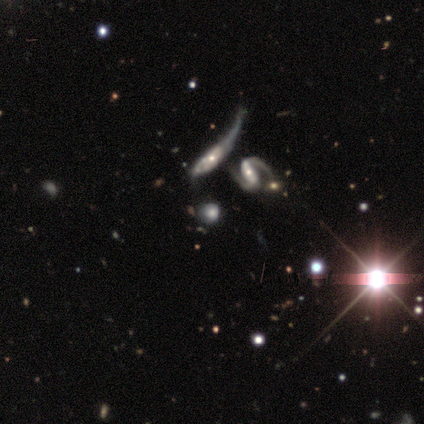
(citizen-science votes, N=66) Q: Smooth or featured?
A: featured or disk (44%); runner-up: smooth (38%)
Q: Edge-on disk?
A: no (86%); runner-up: yes (14%)
Q: Bar?
A: no (56%); runner-up: strong (24%)
Q: Spiral arms?
A: yes (60%); runner-up: no (40%)
Q: Spiral winding?
A: medium (47%); runner-up: tight (27%)
Q: Spiral arm count?
A: 2 (67%); runner-up: 1 (27%)
Q: Bulge size?
A: moderate (56%); runner-up: small (24%)
Q: Merging?
A: merger (37%); runner-up: none (26%)